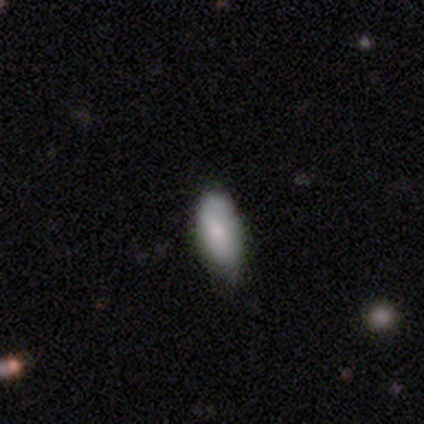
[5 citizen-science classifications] This appears to be a smooth galaxy with no disk features (100%) that is in between round and cigar-shaped (80%). Merging: none (80%).